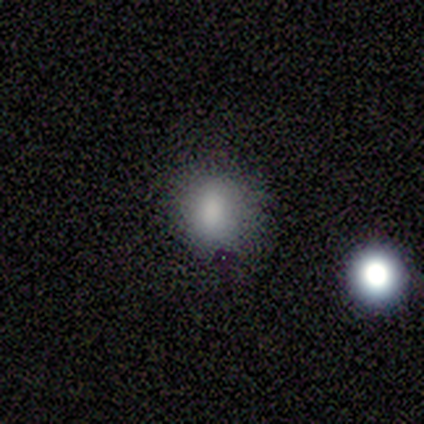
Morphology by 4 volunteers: smooth-or-featured: smooth: 100% | featured or disk: 0% | star or artifact: 0%
  how-rounded: in between: 75% | round: 25% | cigar-shaped: 0%
  merging: none: 75% | minor disturbance: 25% | major disturbance: 0% | merger: 0%